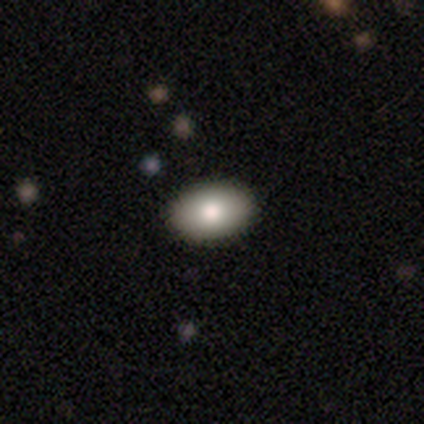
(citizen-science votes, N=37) Smooth or featured? smooth (81%)
How rounded? in between (97%)
Merging? none (51%)